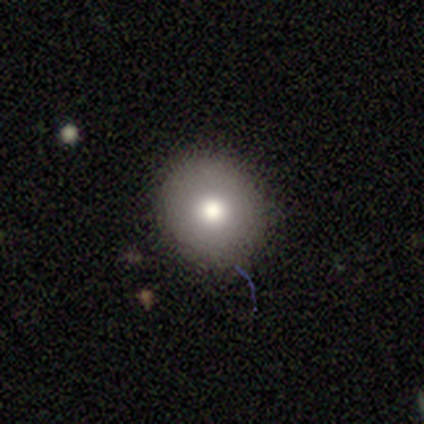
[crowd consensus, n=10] Overall: smooth (90%). How rounded: round (89%). Merging: none (90%).